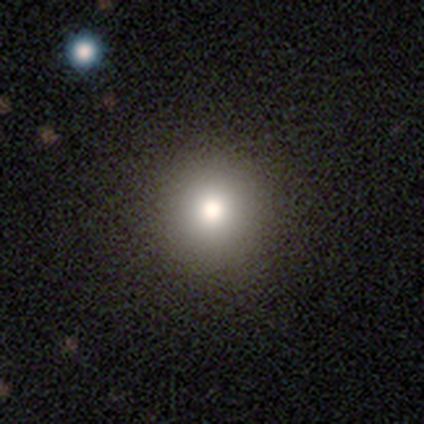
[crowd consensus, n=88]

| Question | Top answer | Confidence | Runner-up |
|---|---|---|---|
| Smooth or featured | smooth | 74% | star or artifact (19%) |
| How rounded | round | 97% | in between (3%) |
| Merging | none | 93% | minor disturbance (4%) |